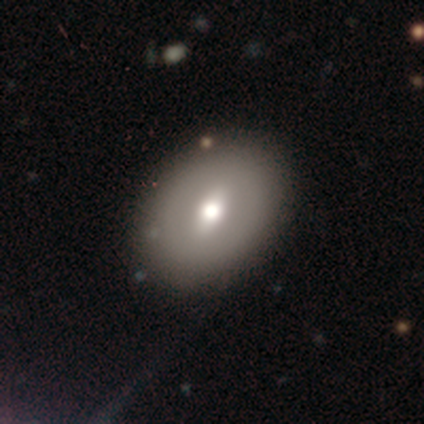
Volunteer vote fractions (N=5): Smooth or featured? 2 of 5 (40%, tied with featured or disk) said smooth. How rounded? 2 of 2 (100%) said round. Merging? 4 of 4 (100%) said none.